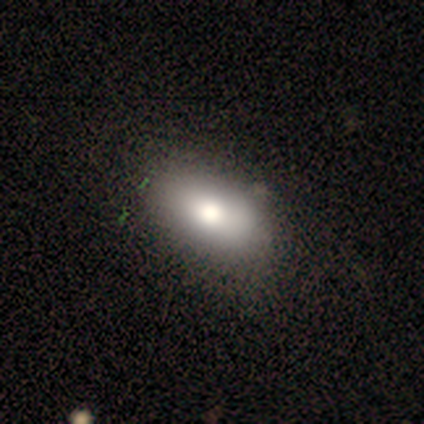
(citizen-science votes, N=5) Smooth or featured? smooth (60%)
How rounded? in between (100%)
Merging? none (100%)